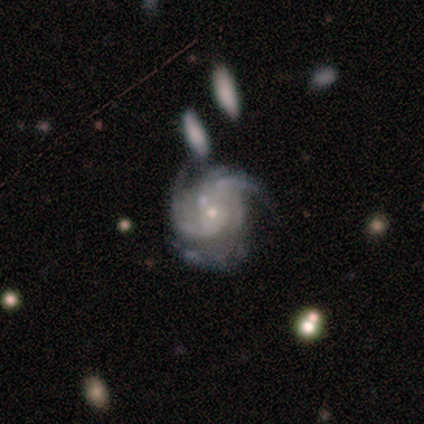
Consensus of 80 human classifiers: A featured or disk galaxy (95%) with no bar (78%), 3 (31%) medium (46%) spiral arms (100%) and a small central bulge (80%).

Vote fractions:
- Smooth or featured? featured or disk: 95% / smooth: 2% / star or artifact: 2%
- Edge-on disk? no: 97% / yes: 3%
- Bar? no: 78% / weak: 14% / strong: 8%
- Spiral arms? yes: 100% / no: 0%
- Spiral winding? medium: 46% / tight: 43% / loose: 11%
- Spiral arm count? 3: 31% / 2: 26% / 4: 20% / can't tell: 20% / 1: 1% / more than 4: 1%
- Bulge size? small: 80% / moderate: 16% / large: 3% / none: 1% / dominant: 0%
- Merging? none: 51% / minor disturbance: 33% / major disturbance: 12% / merger: 4%